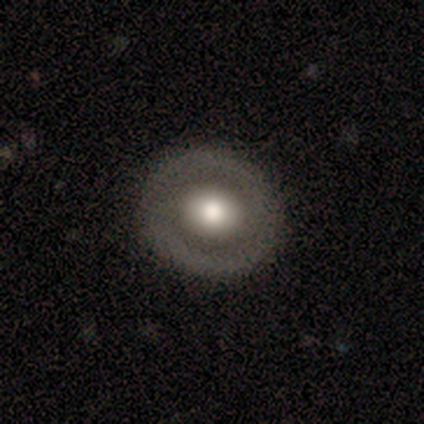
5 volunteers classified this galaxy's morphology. Volunteers were most divided on "smooth or featured": smooth: 60%, featured or disk: 40%, star or artifact: 0%. More confident: how rounded — round (100%); merging — none (100%).